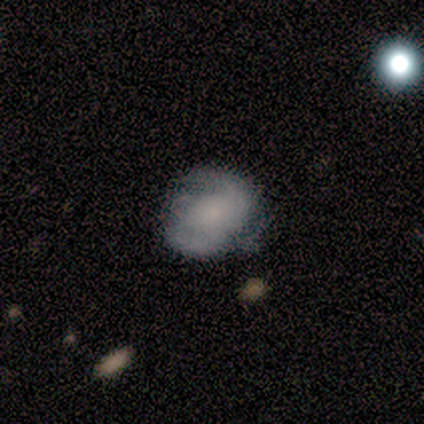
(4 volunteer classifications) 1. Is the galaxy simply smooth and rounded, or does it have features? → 75% featured or disk, 25% smooth, 0% star or artifact.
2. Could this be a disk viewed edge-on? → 100% no, 0% yes.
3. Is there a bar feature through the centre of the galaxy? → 67% no, 33% weak, 0% strong.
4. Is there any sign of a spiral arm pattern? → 100% yes, 0% no.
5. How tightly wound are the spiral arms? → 67% tight, 33% loose, 0% medium.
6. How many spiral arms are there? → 100% 2, 0% 1, 0% 3, 0% 4, 0% more than 4, 0% can't tell.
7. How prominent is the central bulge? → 67% small, 33% large, 0% dominant, 0% moderate, 0% none.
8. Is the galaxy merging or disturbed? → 75% none, 25% minor disturbance, 0% major disturbance, 0% merger.